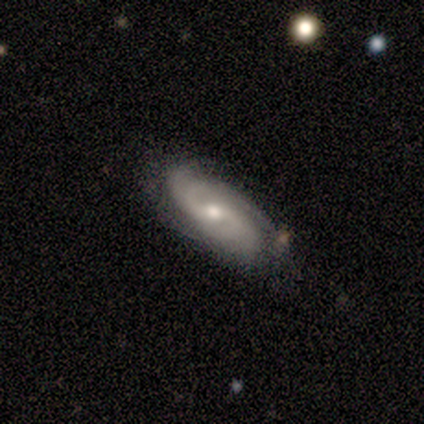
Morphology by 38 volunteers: Smooth or featured? 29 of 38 (76%) said featured or disk. Edge-on disk? 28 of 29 (97%) said no. Bar? 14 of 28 (50%) said weak. Spiral arms? 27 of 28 (96%) said yes. Spiral winding? 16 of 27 (59%) said medium. Spiral arm count? 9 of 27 (33%, tied with can't tell) said 2. Bulge size? 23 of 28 (82%) said moderate. Merging? 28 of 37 (76%) said none.